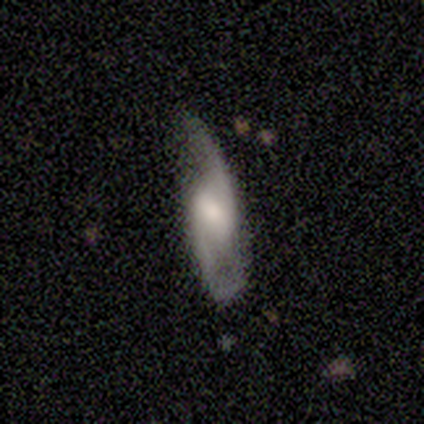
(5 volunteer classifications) This appears to be a featured or disk galaxy (100%) with a weak bar (60%), 2 (80%) loose (60%) spiral arms (100%) and a large central bulge (60%). Merging: none (80%).